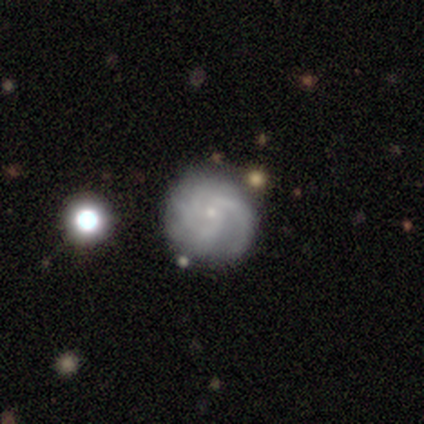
A featured or disk galaxy (80%) with no bar (73%), 3 (32%) medium (46%) spiral arms (97%) and a small central bulge (91%). Merging: none (79%).